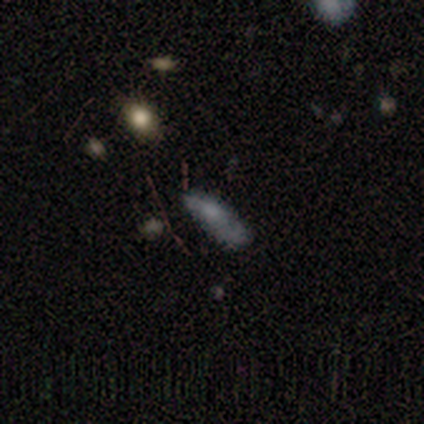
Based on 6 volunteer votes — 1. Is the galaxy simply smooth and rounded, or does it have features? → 50% featured or disk, 33% smooth, 17% star or artifact.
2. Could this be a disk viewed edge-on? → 67% no, 33% yes.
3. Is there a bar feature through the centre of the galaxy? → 100% no, 0% strong, 0% weak.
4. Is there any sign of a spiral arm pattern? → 100% yes, 0% no.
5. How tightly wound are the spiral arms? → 100% tight, 0% medium, 0% loose.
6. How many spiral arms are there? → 50% 1 (tied), 50% can't tell (tied), 0% 2, 0% 3, 0% 4, 0% more than 4.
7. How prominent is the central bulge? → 50% moderate (tied), 50% none (tied), 0% dominant, 0% large, 0% small.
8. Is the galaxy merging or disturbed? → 60% minor disturbance, 20% none, 20% major disturbance, 0% merger.